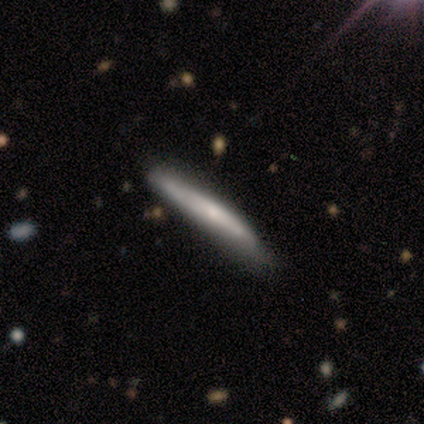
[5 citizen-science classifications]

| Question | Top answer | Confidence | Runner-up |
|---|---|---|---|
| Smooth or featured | featured or disk | 80% | smooth (20%) |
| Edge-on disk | yes | 100% | — |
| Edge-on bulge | boxy | 50% | tied: rounded (50%) |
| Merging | none | 100% | — |